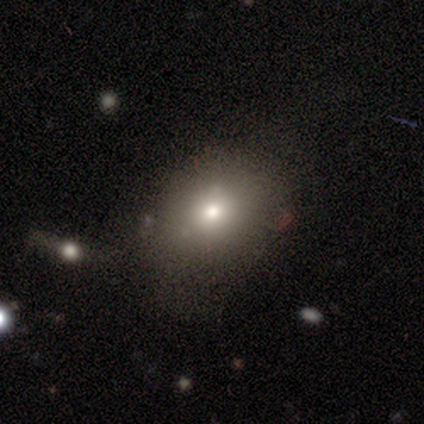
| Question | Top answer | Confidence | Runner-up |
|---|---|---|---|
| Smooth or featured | smooth | 75% | star or artifact (25%) |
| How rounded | in between | 67% | round (33%) |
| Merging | none | 100% | — |